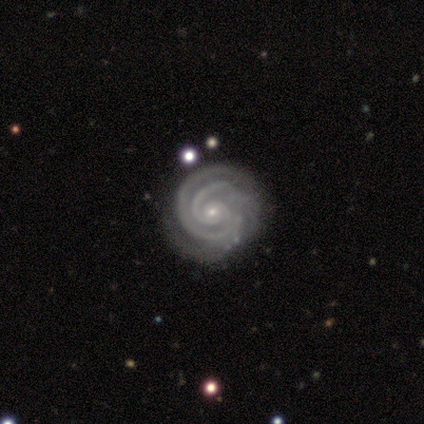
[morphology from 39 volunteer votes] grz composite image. It shows a featured or disk galaxy (97%) with no bar (79%), 2 (78%) tight (95%) spiral arms (97%) and a small central bulge (89%). Merging: none (39%).